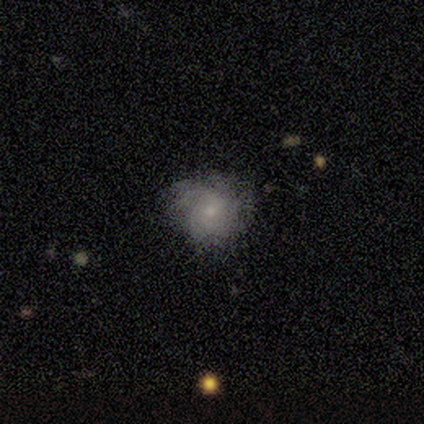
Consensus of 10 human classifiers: Smooth or featured?
  - smooth: 60% *
  - featured or disk: 40%
  - star or artifact: 0%
How rounded?
  - round: 67% *
  - in between: 33%
  - cigar-shaped: 0%
Merging?
  - none: 50% *
  - minor disturbance: 30%
  - major disturbance: 20%
  - merger: 0%